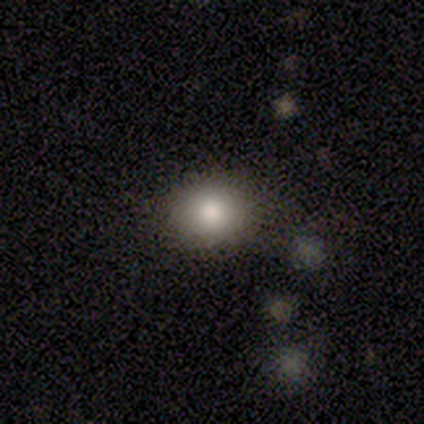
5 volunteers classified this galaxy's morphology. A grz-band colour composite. It shows a smooth galaxy with no disk features (80%) that is round (75%). Merging: none (100%).